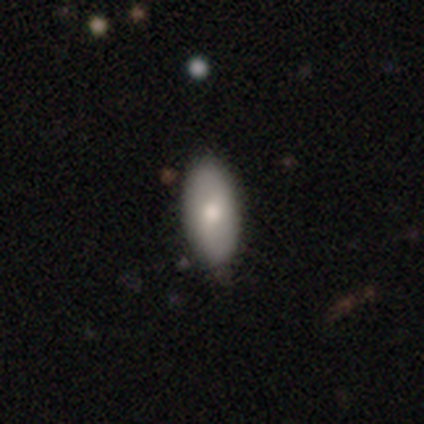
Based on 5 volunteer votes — Overall: smooth (60%; featured or disk 40%). How rounded: in between (100%). Merging: none (80%).